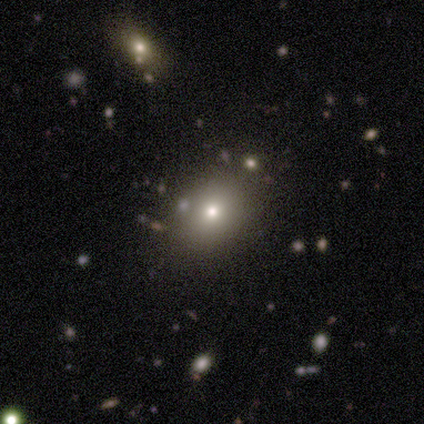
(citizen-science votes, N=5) Q: Smooth or featured?
A: star or artifact (60%); runner-up: smooth (40%)